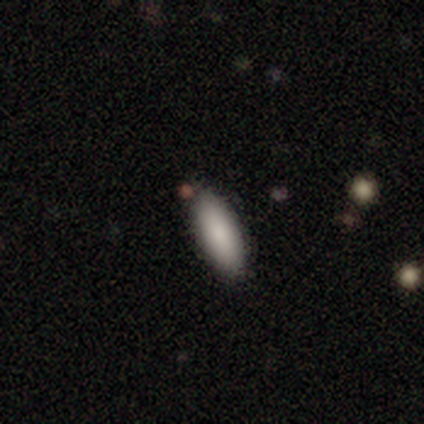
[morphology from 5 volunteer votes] Smooth or featured: smooth — 80% (star or artifact — 20%)
How rounded: in between — 100%
Merging: none — 100%